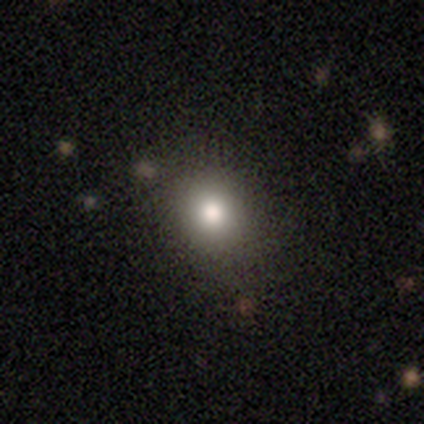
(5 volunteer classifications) smooth 60%, featured or disk 40%, star or artifact 0%. Down the decision tree: how rounded — round (67%); merging — none (80%).